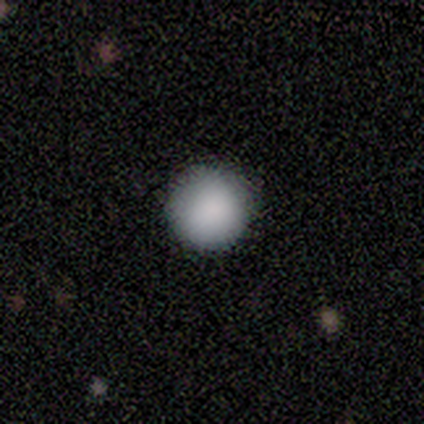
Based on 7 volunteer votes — Smooth or featured? 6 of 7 (86%) said smooth. How rounded? 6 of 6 (100%) said round. Merging? 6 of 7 (86%) said none.